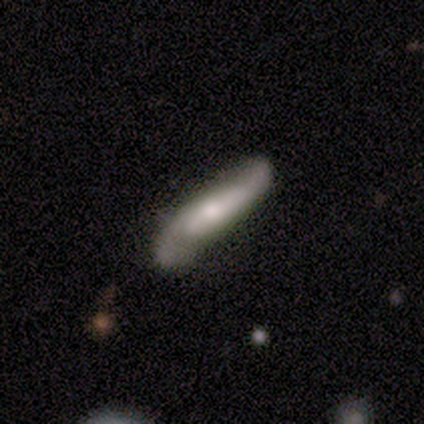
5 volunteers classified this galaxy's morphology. This is clearly a featured or disk galaxy (80%). It is likely not viewed edge-on (75%). Bar: likely no (67%). Spiral arm pattern: clearly yes (100%). Spiral arm count: clearly 2 (100%). Spiral winding: clearly loose (100%). Central bulge: clearly moderate (100%). Merging: likely none (75%).